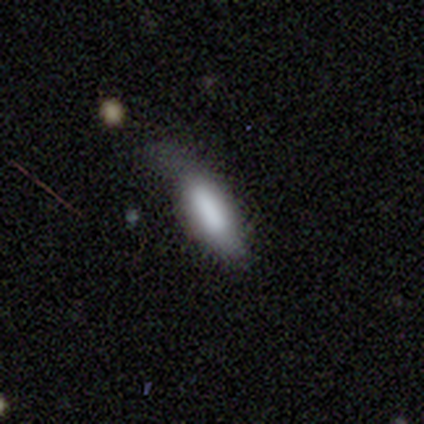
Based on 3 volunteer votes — Overall: smooth (100%). How rounded: in between (67%; cigar-shaped 33%). Merging: none (100%).